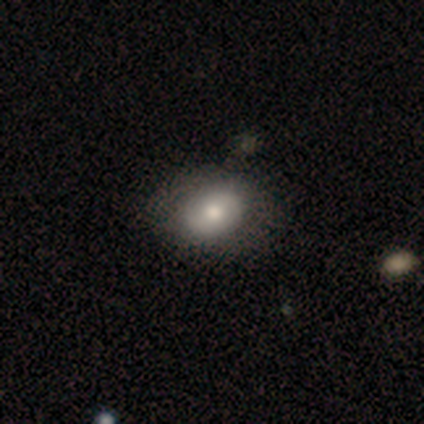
smooth 80%, star or artifact 20%, featured or disk 0%. Down the decision tree: how rounded — in between (75%); merging — none (50%, tied with minor disturbance).